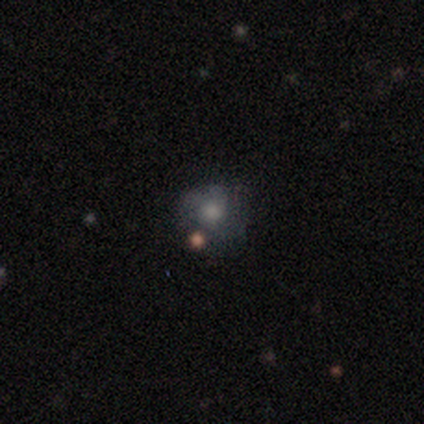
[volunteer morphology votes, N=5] This is likely a smooth galaxy (60%). How rounded: likely round (67%). Merging: possibly none (50%).